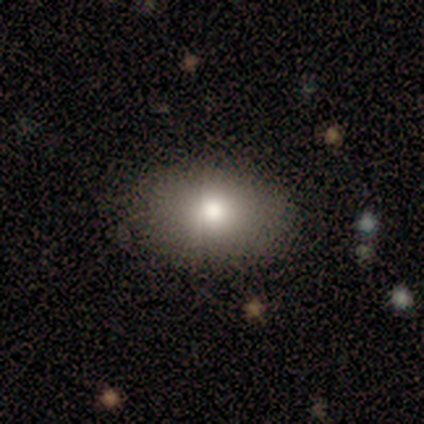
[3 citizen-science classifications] Overall: smooth (67%; star or artifact 33%). How rounded: in between (100%). Merging: none (100%).